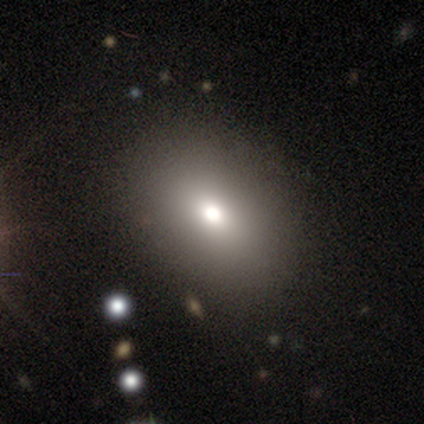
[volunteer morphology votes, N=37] A smooth galaxy with no disk features (78%) that is in between round and cigar-shaped (83%).

Vote fractions:
- Smooth or featured? smooth: 78% / featured or disk: 14% / star or artifact: 8%
- How rounded? in between: 83% / round: 14% / cigar-shaped: 3%
- Merging? none: 91% / minor disturbance: 6% / major disturbance: 3% / merger: 0%